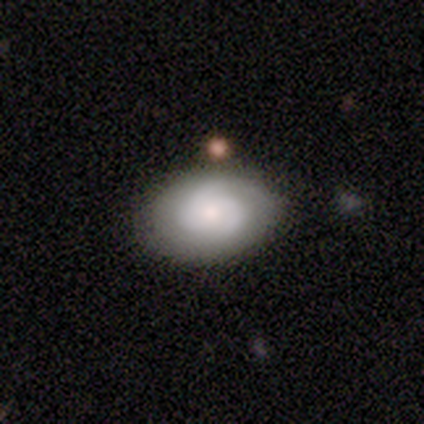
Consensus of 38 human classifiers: smooth-or-featured: featured or disk: 61% | smooth: 34% | star or artifact: 5%
  disk-edge-on: no: 87% | yes: 13%
    bar: no: 65% | weak: 35% | strong: 0%
    has-spiral-arms: yes: 85% | no: 15%
      spiral-winding: tight: 59% | medium: 35% | loose: 6%
      spiral-arm-count: 2: 53% | 3: 29% | 1: 12% | can't tell: 6% | 4: 0% | more than 4: 0%
    bulge-size: small: 55% | moderate: 30% | none: 10% | large: 5% | dominant: 0%
  merging: none: 83% | minor disturbance: 14% | major disturbance: 3% | merger: 0%